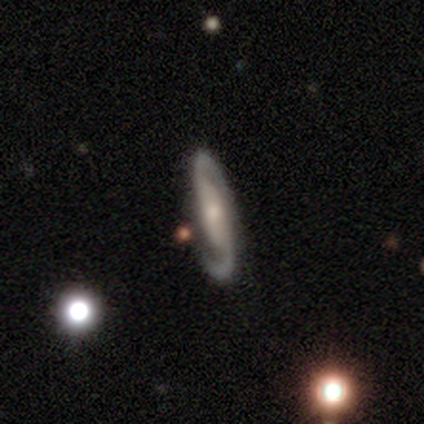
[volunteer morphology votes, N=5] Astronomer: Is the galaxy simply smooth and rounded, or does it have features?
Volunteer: featured or disk — 60%.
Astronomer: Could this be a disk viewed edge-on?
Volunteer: no — 100%.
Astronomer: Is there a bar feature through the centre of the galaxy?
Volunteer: no — 67%.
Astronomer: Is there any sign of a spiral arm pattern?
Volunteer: no — 67%.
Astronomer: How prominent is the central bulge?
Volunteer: moderate — 100%.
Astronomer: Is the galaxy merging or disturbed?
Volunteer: none — 50%, tied with minor disturbance at 50%.